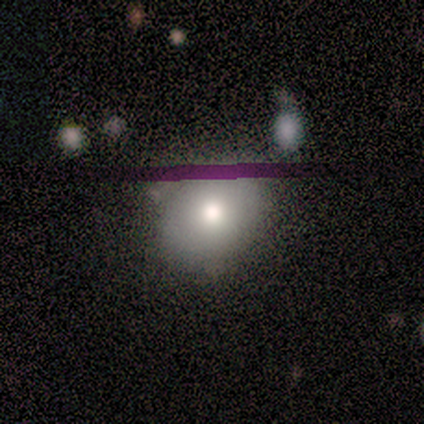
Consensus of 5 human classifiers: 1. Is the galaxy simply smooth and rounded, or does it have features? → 80% smooth, 20% star or artifact, 0% featured or disk.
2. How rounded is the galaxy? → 50% round (tied), 50% in between (tied), 0% cigar-shaped.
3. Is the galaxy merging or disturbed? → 50% none (tied), 50% minor disturbance (tied), 0% major disturbance, 0% merger.